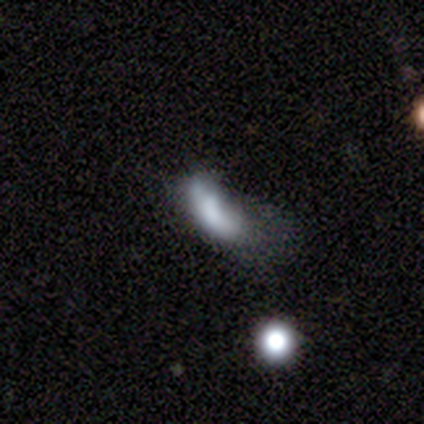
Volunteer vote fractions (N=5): smooth 80%, star or artifact 20%, featured or disk 0%. Down the decision tree: how rounded — in between (75%); merging — major disturbance (50%).